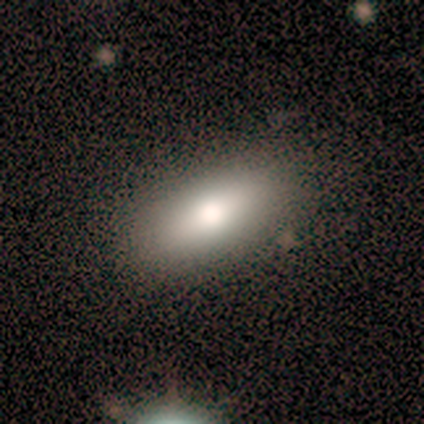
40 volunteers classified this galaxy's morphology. Smooth or featured: smooth — 78% (featured or disk — 18%)
How rounded: in between — 84% (cigar-shaped — 10%)
Merging: none — 87% (minor disturbance — 5%)